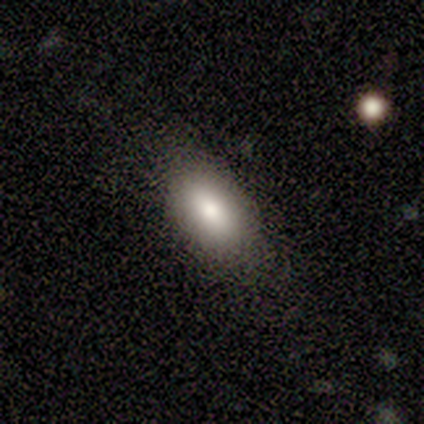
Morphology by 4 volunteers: smooth_or_featured: smooth (p=1.00)
how_rounded: in between (p=1.00)
merging: none (p=1.00)